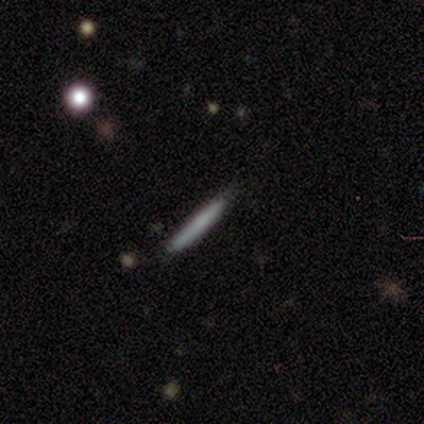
smooth-or-featured: smooth: 100% | featured or disk: 0% | star or artifact: 0%
  how-rounded: cigar-shaped: 100% | round: 0% | in between: 0%
  merging: none: 75% | minor disturbance: 25% | major disturbance: 0% | merger: 0%